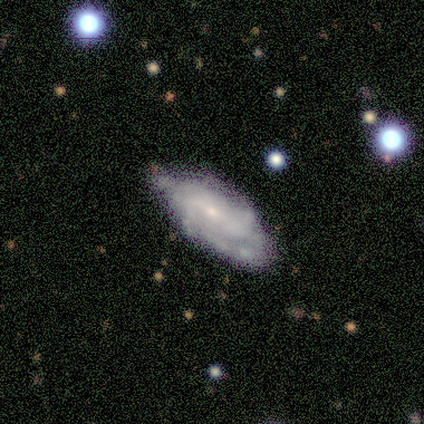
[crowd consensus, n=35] Smooth or featured? featured or disk (77%)
Edge-on disk? no (100%)
Bar? weak (52%)
Spiral arms? yes (89%)
Spiral winding? tight (67%)
Spiral arm count? can't tell (42%)
Bulge size? small (74%)
Merging? none (67%)